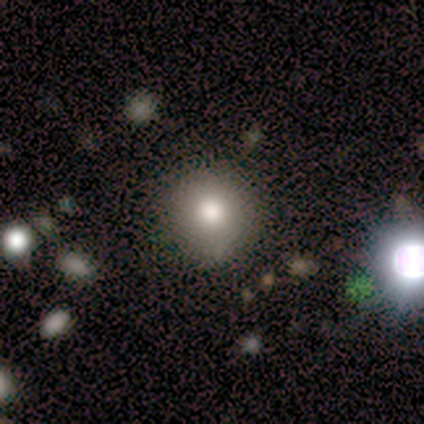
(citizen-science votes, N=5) A smooth galaxy with no disk features (60%) that is round (100%). Merging: none (100%).